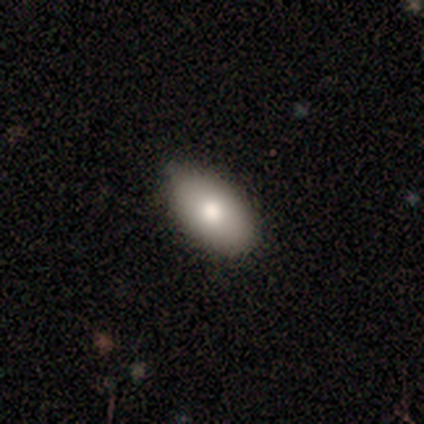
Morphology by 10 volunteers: smooth_or_featured: smooth (p=0.60) [alt: featured or disk p=0.40]
how_rounded: in between (p=1.00)
merging: none (p=0.80) [alt: minor disturbance p=0.20]